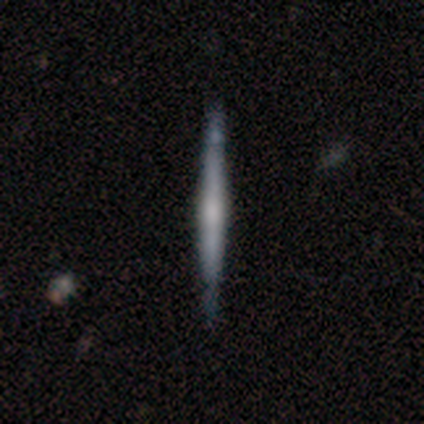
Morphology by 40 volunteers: Volunteers were most divided on "edge-on bulge": rounded: 60%, none: 30%, boxy: 10%. More confident: edge-on disk — yes (100%); merging — none (82%); smooth or featured — featured or disk (75%).